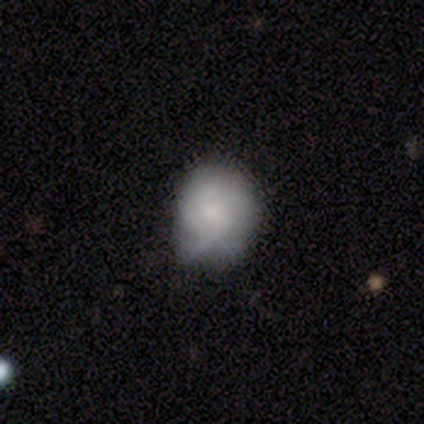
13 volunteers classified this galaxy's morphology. A smooth galaxy with no disk features (54%) that is round (71%). Merging: none (58%).